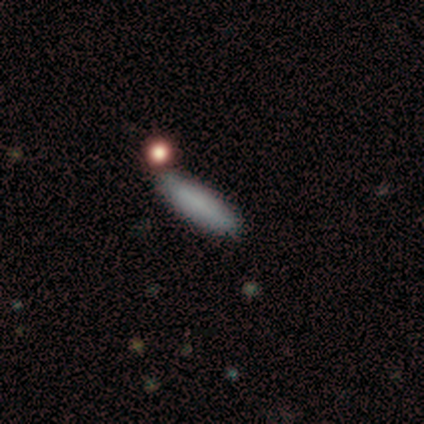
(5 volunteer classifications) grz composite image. It shows a smooth galaxy with no disk features (100%) that is cigar-shaped (80%). Merging: none (100%).